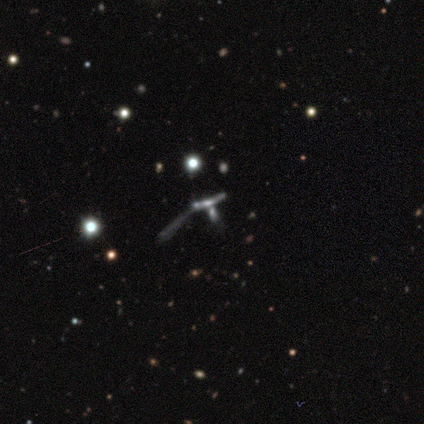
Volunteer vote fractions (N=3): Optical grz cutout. It shows a star or artifact, not a galaxy (67%).